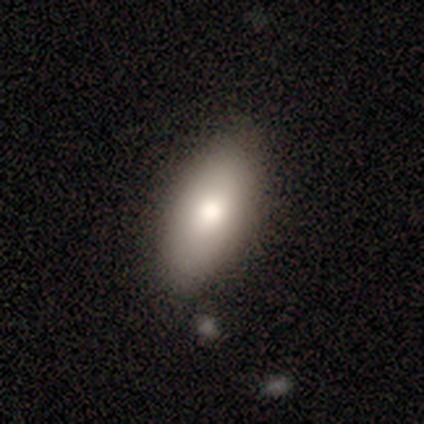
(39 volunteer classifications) Overall: smooth (82%). How rounded: in between (84%). Merging: none (82%).